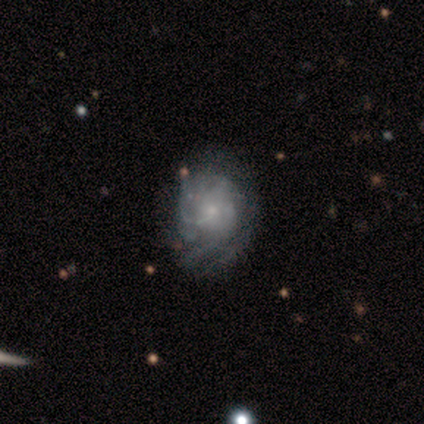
featured or disk 80%, smooth 20%, star or artifact 0%. Down the decision tree: edge-on disk — no (100%); bar — no (75%); spiral arms — yes (100%); spiral arm count — can't tell (100%); spiral winding — tight (75%); bulge size — small (75%); merging — none (80%).